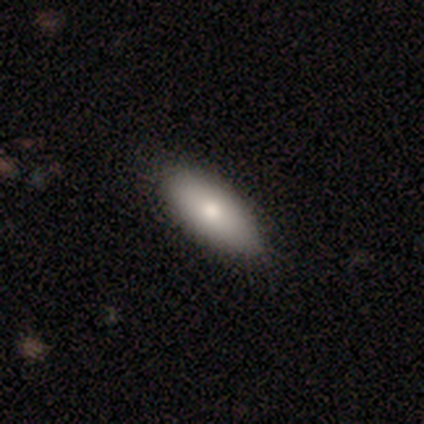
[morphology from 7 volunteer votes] This is clearly a smooth galaxy (86%). How rounded: clearly in between (100%). Merging: clearly none (100%).